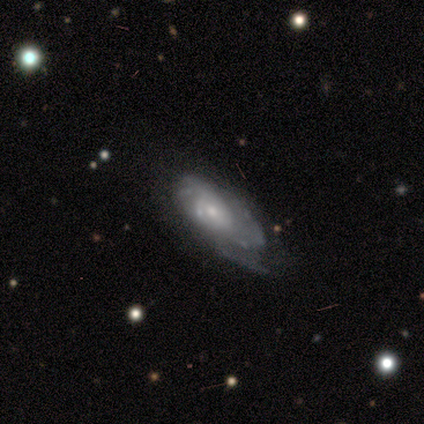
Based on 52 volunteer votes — smooth_or_featured: featured or disk (p=0.79) [alt: smooth p=0.17]
disk_edge_on: no (p=0.85) [alt: yes p=0.15]
bar: no (p=0.77) [alt: weak p=0.23]
has_spiral_arms: yes (p=0.91) [alt: no p=0.09]
spiral_winding: tight (p=0.41) [tied with: medium p=0.41]
spiral_arm_count: can't tell (p=0.59) [alt: 3 p=0.19]
bulge_size: small (p=0.69) [alt: moderate p=0.26]
merging: minor disturbance (p=0.48) [alt: none p=0.38]